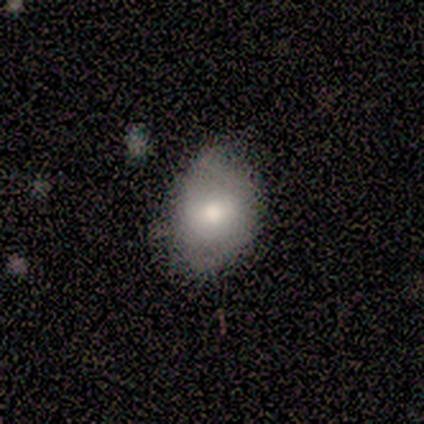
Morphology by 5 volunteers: Smooth or featured? 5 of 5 (100%) said smooth. How rounded? 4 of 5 (80%) said in between. Merging? 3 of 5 (60%) said none.